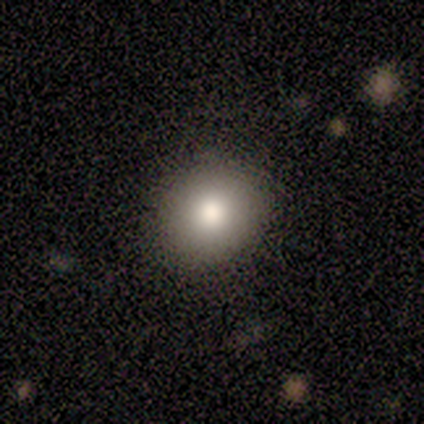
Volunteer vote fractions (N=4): A smooth galaxy with no disk features (75%) that is round (67%).

Vote fractions:
- Smooth or featured? smooth: 75% / featured or disk: 25% / star or artifact: 0%
- How rounded? round: 67% / in between: 33% / cigar-shaped: 0%
- Merging? none: 100% / minor disturbance: 0% / major disturbance: 0% / merger: 0%